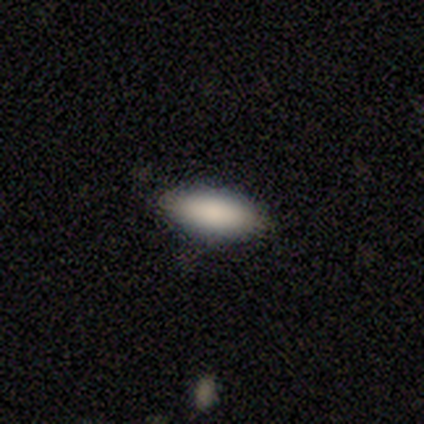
Morphology: type=smooth (92%); roundness=in between (100%); merging=none (92%).